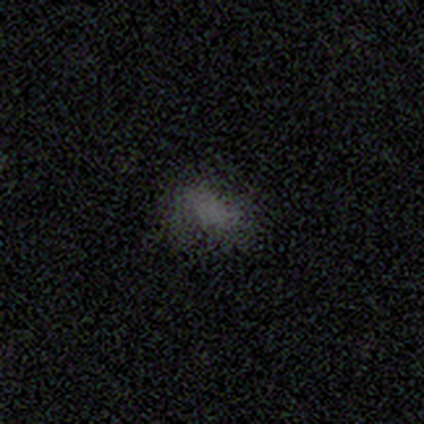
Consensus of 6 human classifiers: smooth-or-featured: smooth: 50% | star or artifact: 33% | featured or disk: 17%
  how-rounded: in between: 100% | round: 0% | cigar-shaped: 0%
  merging: none: 75% | merger: 25% | minor disturbance: 0% | major disturbance: 0%